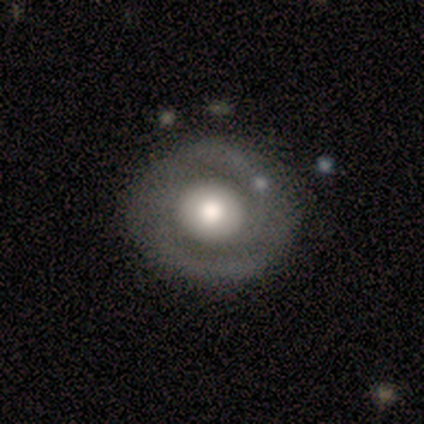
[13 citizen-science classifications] Morphology: type=featured or disk (62%); edge-on=no (100%); bar=no (88%); spiral arms=yes (88%); winding=medium (57%); arm count=2 (71%); bulge=large (62%); merging=none (85%).